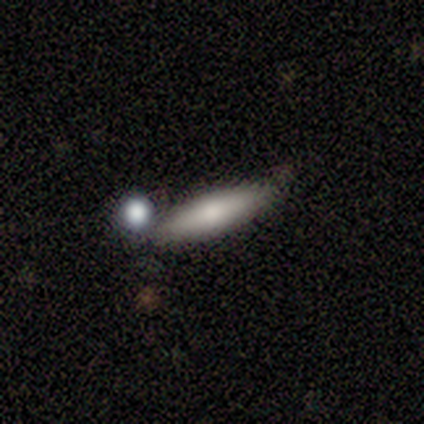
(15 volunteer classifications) Morphology: type=smooth (87%); roundness=cigar-shaped (85%); merging=none (60%).